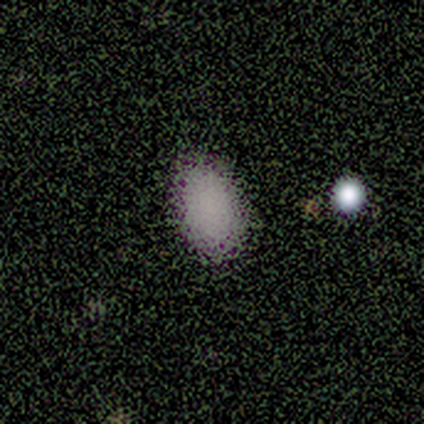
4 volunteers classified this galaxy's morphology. Q: Smooth or featured?
A: smooth (100%)
Q: How rounded?
A: in between (100%)
Q: Merging?
A: none (100%)